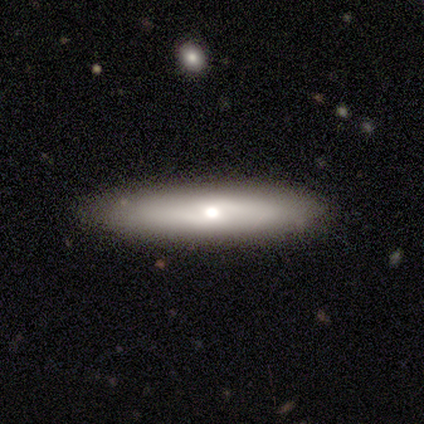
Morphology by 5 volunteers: smooth-or-featured: featured or disk: 60% | smooth: 40% | star or artifact: 0%
  disk-edge-on: yes: 67% | no: 33%
    edge-on-bulge: rounded: 100% | boxy: 0% | none: 0%
  merging: none: 80% | minor disturbance: 20% | major disturbance: 0% | merger: 0%